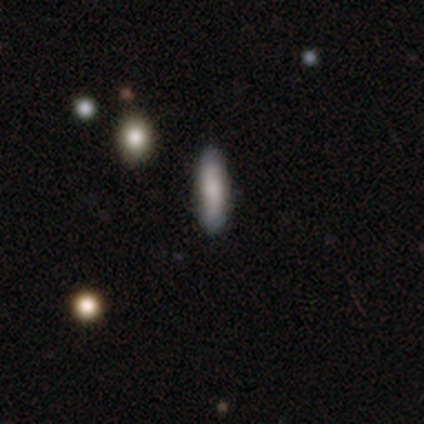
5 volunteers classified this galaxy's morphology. smooth-or-featured: smooth: 100% | featured or disk: 0% | star or artifact: 0%
  how-rounded: in between: 60% | cigar-shaped: 40% | round: 0%
  merging: none: 100% | minor disturbance: 0% | major disturbance: 0% | merger: 0%